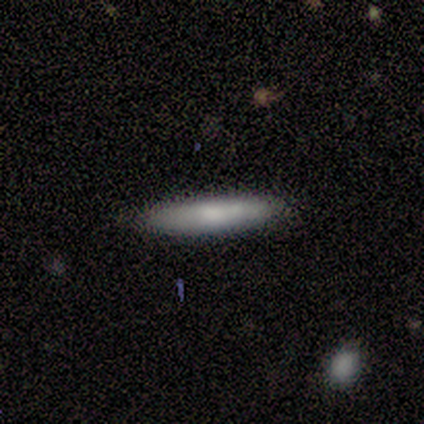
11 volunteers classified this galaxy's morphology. Smooth or featured?
  - smooth: 82% *
  - featured or disk: 18%
  - star or artifact: 0%
How rounded?
  - cigar-shaped: 89% *
  - in between: 11%
  - round: 0%
Merging?
  - none: 82% *
  - minor disturbance: 18%
  - major disturbance: 0%
  - merger: 0%